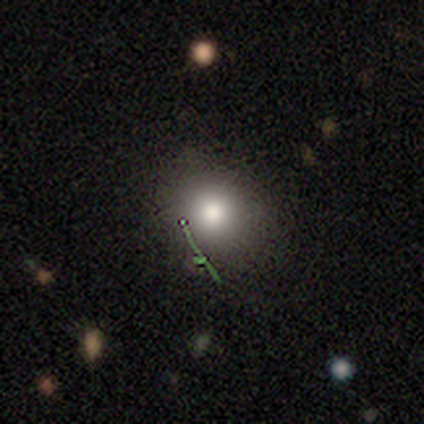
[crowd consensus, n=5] This is marginally a smooth galaxy (40%, tied with featured or disk). How rounded: clearly round (100%). Merging: clearly none (100%).